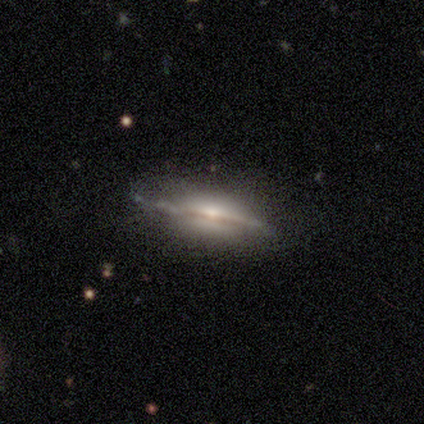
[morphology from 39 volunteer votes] A featured or disk galaxy (77%) viewed edge-on (97%) with a rounded central bulge (83%).

Vote fractions:
- Smooth or featured? featured or disk: 77% / star or artifact: 13% / smooth: 10%
- Edge-on disk? yes: 97% / no: 3%
- Edge-on bulge? rounded: 83% / boxy: 10% / none: 7%
- Merging? none: 76% / minor disturbance: 21% / major disturbance: 3% / merger: 0%